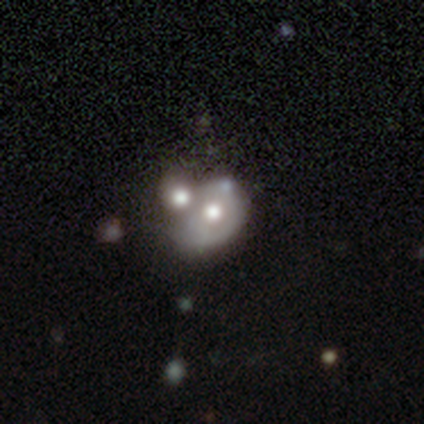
smooth_or_featured: featured or disk (p=0.52) [alt: smooth p=0.42]
disk_edge_on: no (p=0.94) [alt: yes p=0.06]
bar: no (p=0.81) [alt: weak p=0.19]
has_spiral_arms: no (p=0.81) [alt: yes p=0.19]
bulge_size: moderate (p=0.44) [alt: large p=0.31]
merging: merger (p=0.55)